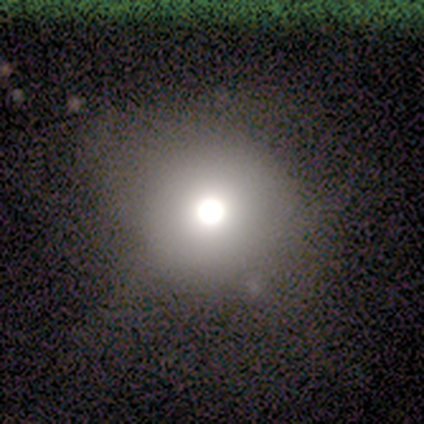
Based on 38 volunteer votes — Smooth or featured: smooth — 63% (featured or disk — 18%)
How rounded: round — 100%
Merging: none — 71% (minor disturbance — 16%)